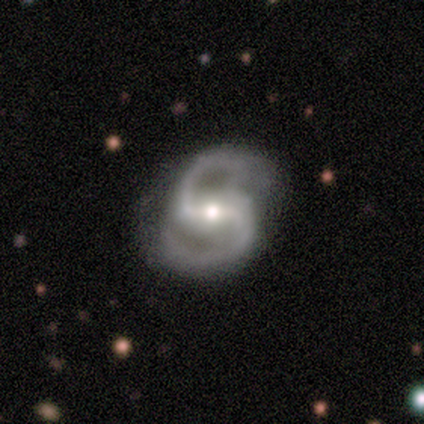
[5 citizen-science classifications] Morphology: type=featured or disk (100%); edge-on=no (100%); bar=strong (40%, tied with no); spiral arms=yes (100%); winding=medium (60%); arm count=2 (100%); bulge=moderate (40%, tied with small); merging=none (100%).